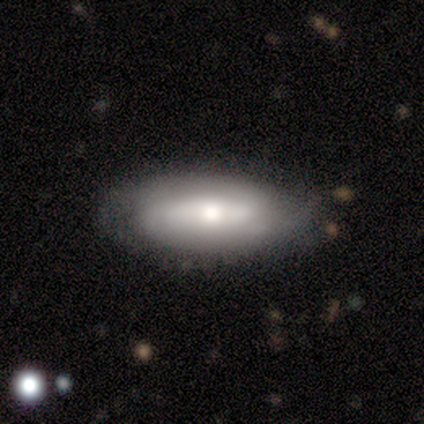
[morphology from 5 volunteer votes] A featured or disk galaxy (60%) with no bar (100%), 2 (50%, tied with can't tell) tight (100%) spiral arms (67%) and a moderate central bulge (67%).

Vote fractions:
- Smooth or featured? featured or disk: 60% / smooth: 20% / star or artifact: 20%
- Edge-on disk? no: 100% / yes: 0%
- Bar? no: 100% / strong: 0% / weak: 0%
- Spiral arms? yes: 67% / no: 33%
- Spiral winding? tight: 100% / medium: 0% / loose: 0%
- Spiral arm count? 2: 50% (tied) / can't tell: 50% (tied) / 1: 0% / 3: 0% / 4: 0% / more than 4: 0%
- Bulge size? moderate: 67% / small: 33% / dominant: 0% / large: 0% / none: 0%
- Merging? none: 100% / minor disturbance: 0% / major disturbance: 0% / merger: 0%